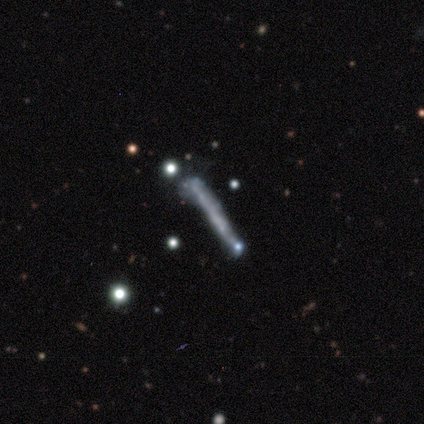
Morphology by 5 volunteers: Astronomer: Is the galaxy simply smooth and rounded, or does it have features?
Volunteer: featured or disk — 60%.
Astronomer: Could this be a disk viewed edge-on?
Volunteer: yes — 67%.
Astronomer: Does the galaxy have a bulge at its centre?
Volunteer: none — 100%.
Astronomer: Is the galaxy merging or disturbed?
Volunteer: none — 50%.